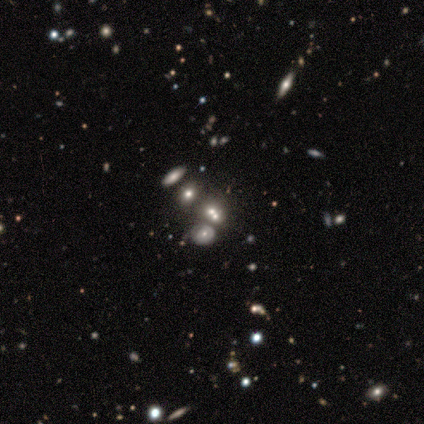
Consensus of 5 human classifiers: Smooth or featured? 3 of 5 (60%) said featured or disk. Edge-on disk? 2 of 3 (67%) said no. Bar? 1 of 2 (50%, tied with no) said weak. Spiral arms? 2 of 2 (100%) said yes. Spiral winding? 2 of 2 (100%) said tight. Spiral arm count? 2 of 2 (100%) said can't tell. Bulge size? 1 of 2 (50%, tied with small) said moderate. Merging? 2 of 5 (40%, tied with merger) said none.